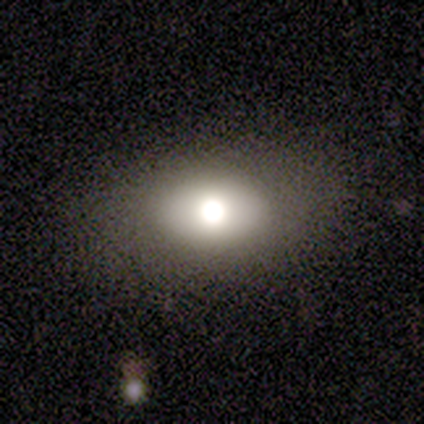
Smooth or featured? smooth (67%)
How rounded? round (50%, tied with in between)
Merging? none (100%)